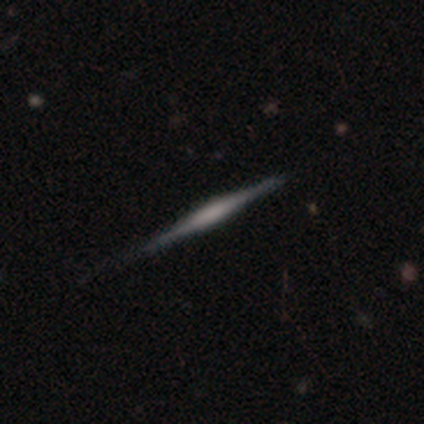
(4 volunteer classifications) Smooth or featured? featured or disk (75%)
Edge-on disk? yes (100%)
Edge-on bulge? boxy (33%, tied with none and rounded)
Merging? none (100%)